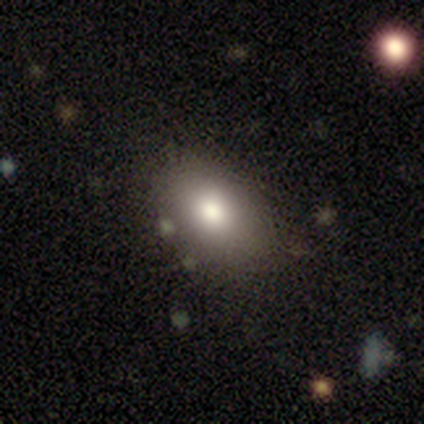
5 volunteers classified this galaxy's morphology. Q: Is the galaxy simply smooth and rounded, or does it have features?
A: smooth — 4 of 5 (80%).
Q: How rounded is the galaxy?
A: in between — 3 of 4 (75%).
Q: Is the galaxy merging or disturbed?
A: none — 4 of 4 (100%).